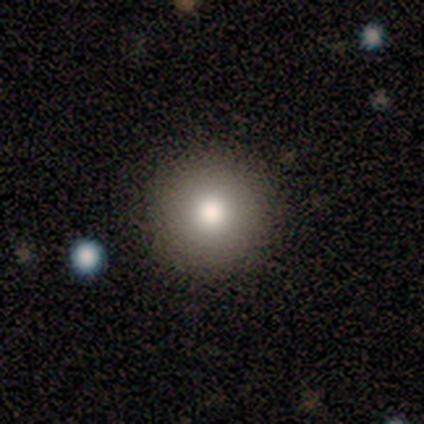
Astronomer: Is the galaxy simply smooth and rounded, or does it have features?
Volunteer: smooth — 75%.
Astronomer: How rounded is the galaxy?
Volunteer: round — 100%.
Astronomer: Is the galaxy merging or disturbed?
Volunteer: none — 100%.